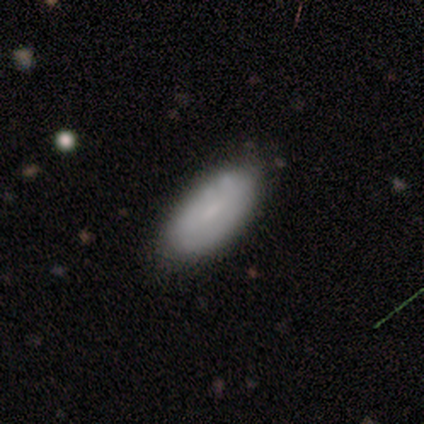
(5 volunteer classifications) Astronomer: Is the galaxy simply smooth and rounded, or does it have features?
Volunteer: smooth — 60% (runner-up: featured or disk, 40%).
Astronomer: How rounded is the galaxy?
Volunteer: in between — 100%.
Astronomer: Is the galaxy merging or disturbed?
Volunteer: none — 60%.